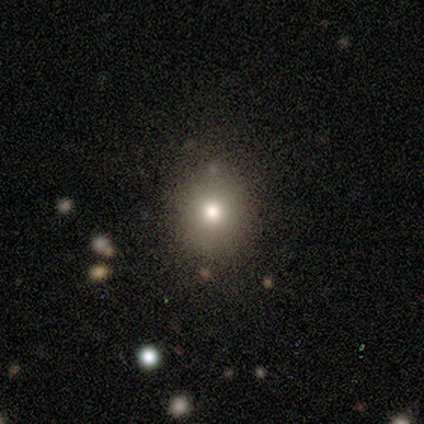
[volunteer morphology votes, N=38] A smooth galaxy with no disk features (82%) that is round (81%).

Vote fractions:
- Smooth or featured? smooth: 82% / star or artifact: 16% / featured or disk: 3%
- How rounded? round: 81% / in between: 19% / cigar-shaped: 0%
- Merging? none: 88% / minor disturbance: 12% / major disturbance: 0% / merger: 0%